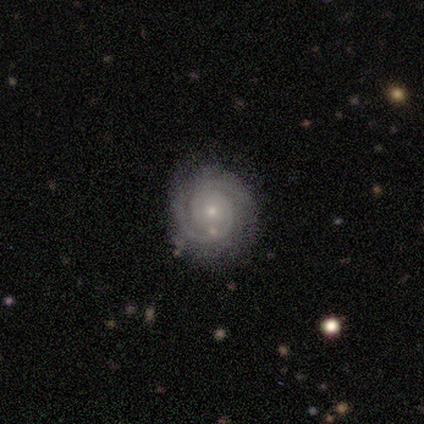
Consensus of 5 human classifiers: This is clearly a featured or disk galaxy (100%). It is clearly not viewed edge-on (100%). Bar: clearly no (80%). Spiral arm pattern: clearly yes (80%). Spiral arm count: clearly 2 (100%). Spiral winding: possibly tight (50%, tied with medium). Central bulge: clearly small (80%). Merging: likely none (60%).